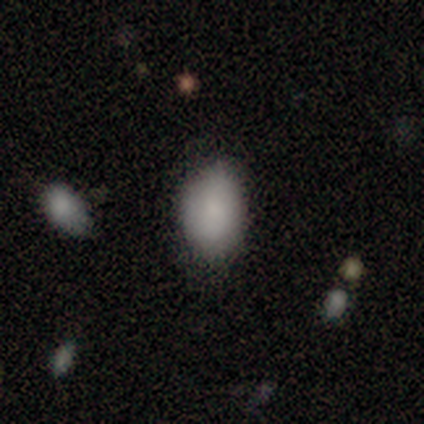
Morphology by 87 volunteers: Smooth or featured?
  - smooth: 85% *
  - star or artifact: 8%
  - featured or disk: 7%
How rounded?
  - in between: 92% *
  - round: 5%
  - cigar-shaped: 3%
Merging?
  - none: 76% *
  - minor disturbance: 20%
  - major disturbance: 4%
  - merger: 0%